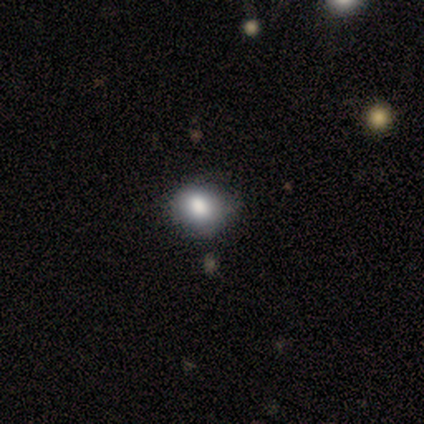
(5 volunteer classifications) Overall: smooth (100%). How rounded: round (80%). Merging: none (80%).